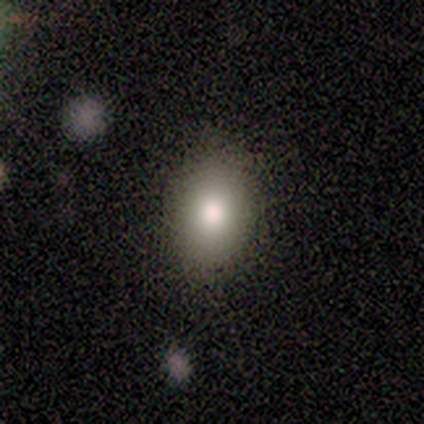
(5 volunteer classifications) A smooth galaxy with no disk features (80%) that is in between round and cigar-shaped (100%).

Vote fractions:
- Smooth or featured? smooth: 80% / star or artifact: 20% / featured or disk: 0%
- How rounded? in between: 100% / round: 0% / cigar-shaped: 0%
- Merging? none: 75% / major disturbance: 25% / minor disturbance: 0% / merger: 0%